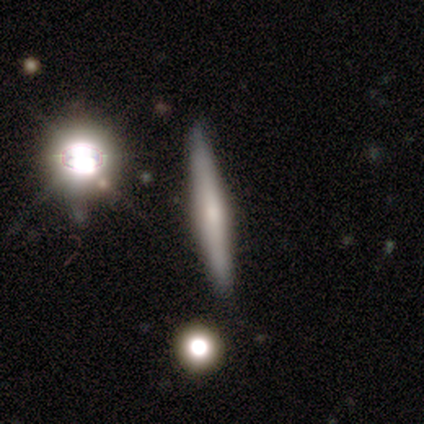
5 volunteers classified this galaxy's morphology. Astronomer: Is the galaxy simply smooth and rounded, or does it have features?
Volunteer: smooth — 60% (runner-up: featured or disk, 40%).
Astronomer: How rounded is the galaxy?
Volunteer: cigar-shaped — 100%.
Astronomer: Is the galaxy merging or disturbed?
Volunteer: none — 100%.